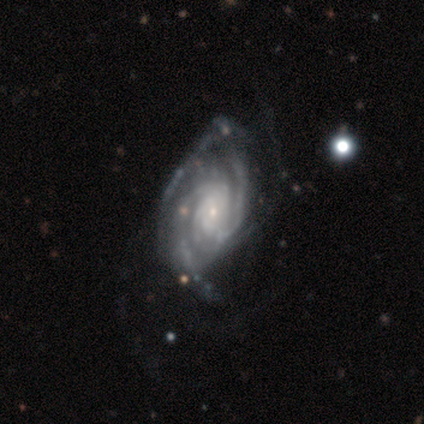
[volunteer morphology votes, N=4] Overall: featured or disk (100%). Edge-on disk: no (100%). Bar: no (75%). Spiral arms: yes (100%). Spiral arm count: can't tell (75%). Spiral winding: tight (50%, tied with medium). Bulge size: small (75%). Merging: none (50%, tied with major disturbance).